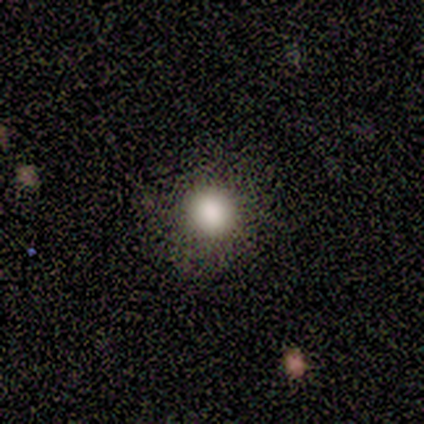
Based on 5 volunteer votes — Smooth or featured? 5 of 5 (100%) said smooth. How rounded? 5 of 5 (100%) said round. Merging? 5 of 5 (100%) said none.